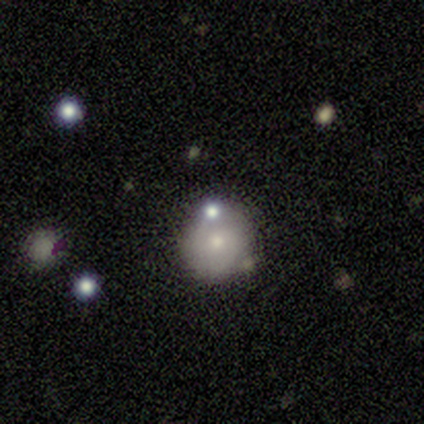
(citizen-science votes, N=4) Overall: smooth (75%). How rounded: round (100%). Merging: none (100%).